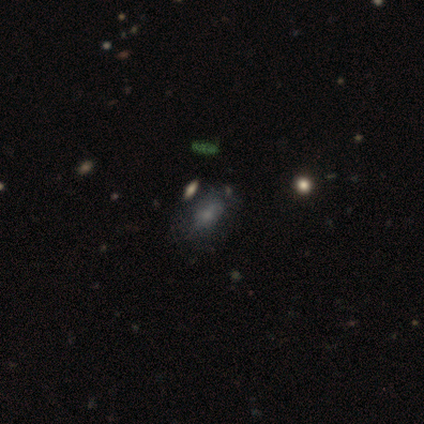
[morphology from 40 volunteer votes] Q: Smooth or featured?
A: smooth (72%); runner-up: featured or disk (15%)
Q: How rounded?
A: in between (90%); runner-up: round (10%)
Q: Merging?
A: none (74%); runner-up: minor disturbance (14%)